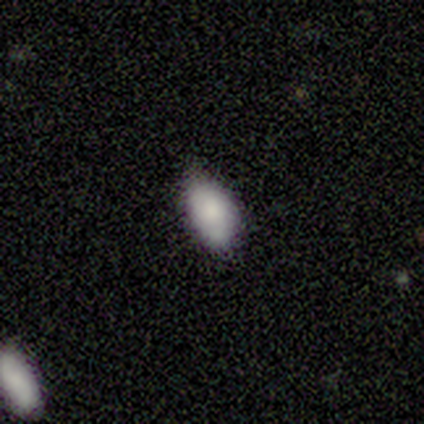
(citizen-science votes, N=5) Smooth or featured?
  - smooth: 100% *
  - featured or disk: 0%
  - star or artifact: 0%
How rounded?
  - in between: 100% *
  - round: 0%
  - cigar-shaped: 0%
Merging?
  - none: 60% *
  - minor disturbance: 40%
  - major disturbance: 0%
  - merger: 0%